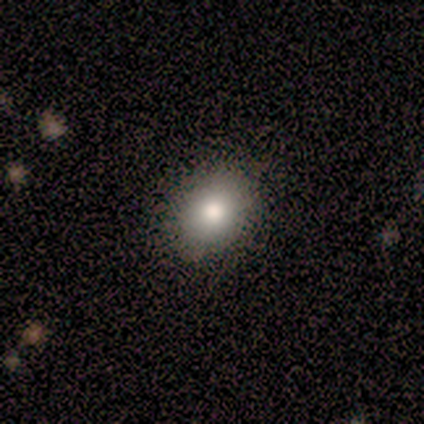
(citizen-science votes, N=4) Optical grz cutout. It shows a smooth galaxy with no disk features (50%, tied with star or artifact) that is round (50%, tied with in between). Merging: none (100%).